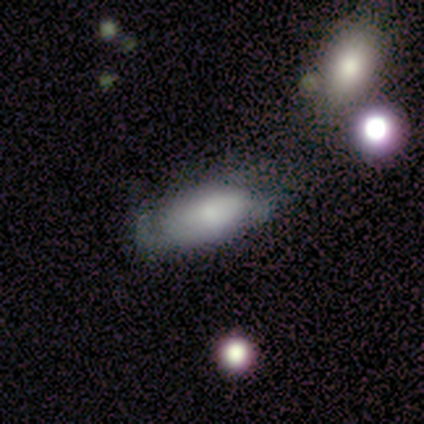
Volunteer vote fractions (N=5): Q: Smooth or featured?
A: smooth (40%); tied with: featured or disk (40%)
Q: How rounded?
A: in between (100%)
Q: Merging?
A: none (100%)